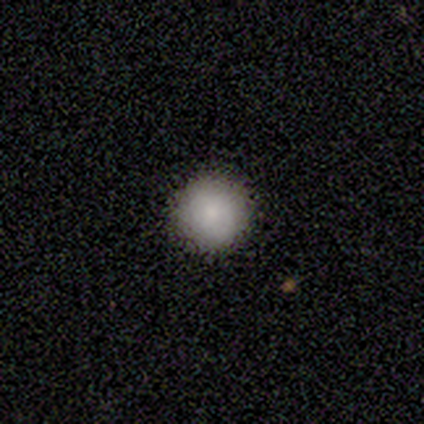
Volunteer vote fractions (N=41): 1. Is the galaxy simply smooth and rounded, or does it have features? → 85% smooth, 7% featured or disk, 7% star or artifact.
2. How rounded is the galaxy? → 94% round, 6% in between, 0% cigar-shaped.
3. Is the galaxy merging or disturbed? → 97% none, 3% minor disturbance, 0% major disturbance, 0% merger.